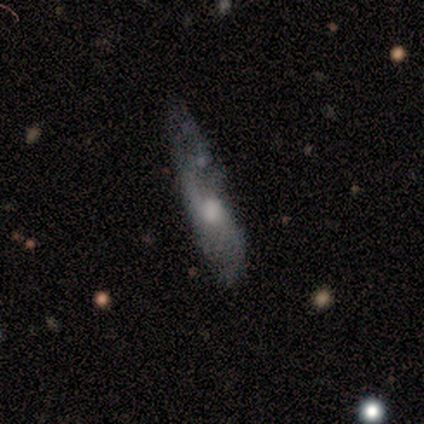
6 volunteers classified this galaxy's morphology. Volunteers were most divided on "merging" (2-way tie): none: 50%, minor disturbance: 50%, major disturbance: 0%, merger: 0%. More confident: how rounded — cigar-shaped (100%); smooth or featured — smooth (67%).